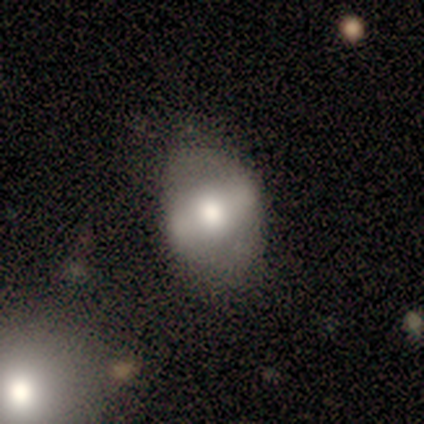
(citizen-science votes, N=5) This is clearly a smooth galaxy (80%). How rounded: likely in between (75%). Merging: clearly none (80%).